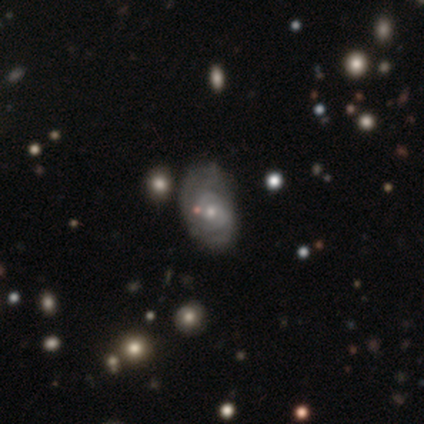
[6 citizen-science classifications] This is clearly a featured or disk galaxy (83%). It is clearly not viewed edge-on (100%). Bar: likely no (60%). Spiral arm pattern: clearly yes (100%). Spiral arm count: marginally 2 (40%, tied with can't tell). Spiral winding: likely medium (60%). Central bulge: clearly small (100%). Merging: likely minor disturbance (60%).